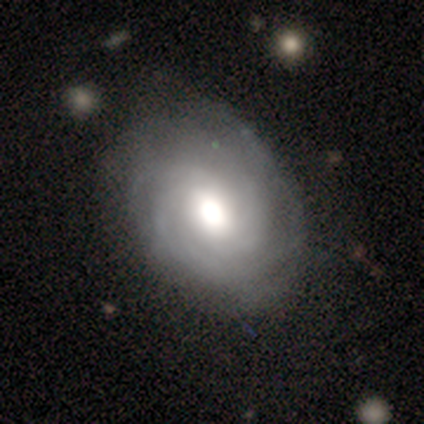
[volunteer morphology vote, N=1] Overall: featured or disk (100%). Edge-on disk: no (100%). Bar: strong (100%). Spiral arms: yes (100%). Spiral arm count: can't tell (100%). Spiral winding: tight (100%). Bulge size: moderate (100%). Merging: none (100%).